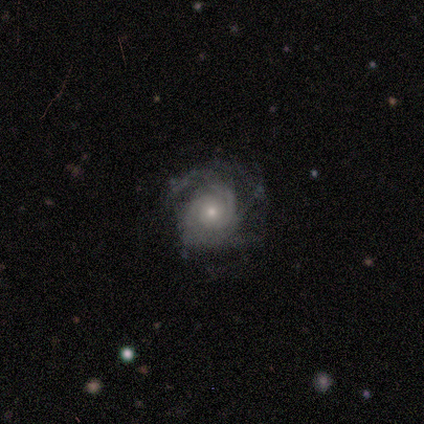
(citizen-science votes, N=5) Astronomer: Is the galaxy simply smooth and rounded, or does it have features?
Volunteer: featured or disk — 80%.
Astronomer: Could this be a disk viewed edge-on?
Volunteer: no — 100%.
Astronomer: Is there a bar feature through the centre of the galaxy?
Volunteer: no — 75%.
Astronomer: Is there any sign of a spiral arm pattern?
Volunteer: yes — 75%.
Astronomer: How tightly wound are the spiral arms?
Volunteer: medium — 67%.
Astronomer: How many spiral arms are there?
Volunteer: can't tell — 67%.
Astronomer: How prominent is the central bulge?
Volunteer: small — 100%.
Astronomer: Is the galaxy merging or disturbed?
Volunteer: none — 60%.